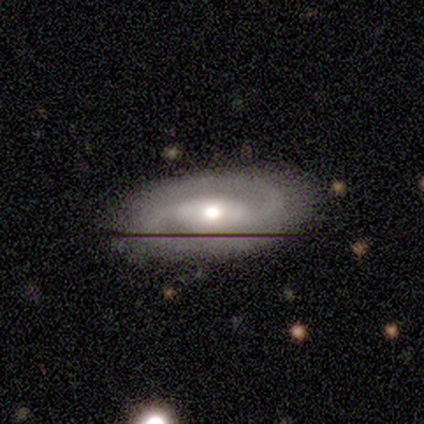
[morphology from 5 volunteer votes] A featured or disk galaxy (80%) with a strong bar (50%), 2 (100%) medium (67%) spiral arms (75%) and a moderate central bulge (100%). Merging: none (75%).